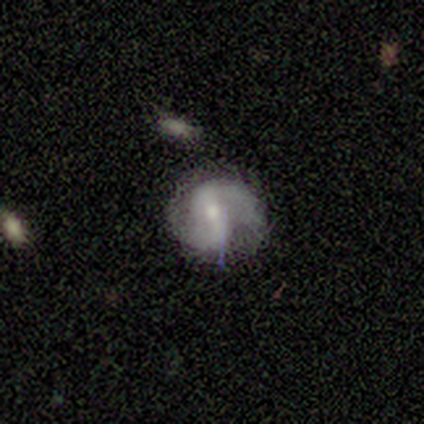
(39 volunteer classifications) A featured or disk galaxy (69%) with a strong bar (44%), 2 (88%) medium (46%) spiral arms (96%) and a small central bulge (52%).

Vote fractions:
- Smooth or featured? featured or disk: 69% / smooth: 23% / star or artifact: 8%
- Edge-on disk? no: 100% / yes: 0%
- Bar? strong: 44% / weak: 37% / no: 19%
- Spiral arms? yes: 96% / no: 4%
- Spiral winding? medium: 46% / tight: 35% / loose: 19%
- Spiral arm count? 2: 88% / can't tell: 8% / 1: 4% / 3: 0% / 4: 0% / more than 4: 0%
- Bulge size? small: 52% / moderate: 48% / dominant: 0% / large: 0% / none: 0%
- Merging? none: 78% / minor disturbance: 19% / major disturbance: 3% / merger: 0%